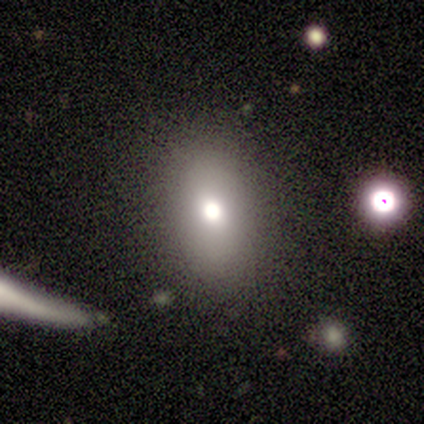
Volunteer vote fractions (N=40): smooth 70%, featured or disk 15%, star or artifact 15%. Down the decision tree: how rounded — in between (82%); merging — none (91%).